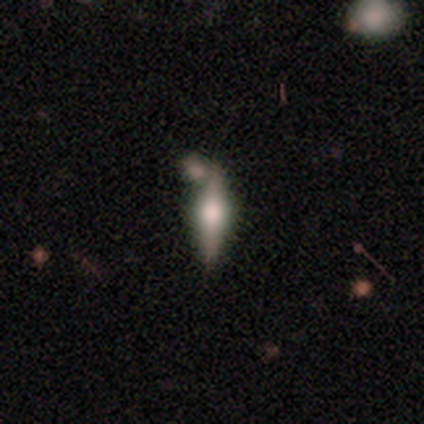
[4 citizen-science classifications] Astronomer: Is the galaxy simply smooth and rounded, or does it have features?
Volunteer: featured or disk — 75%.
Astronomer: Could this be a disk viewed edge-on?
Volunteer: yes — 100%.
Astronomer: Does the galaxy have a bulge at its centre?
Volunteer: rounded — 100%.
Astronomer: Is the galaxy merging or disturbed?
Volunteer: none — 25%, tied with minor disturbance, major disturbance and merger at 25%.